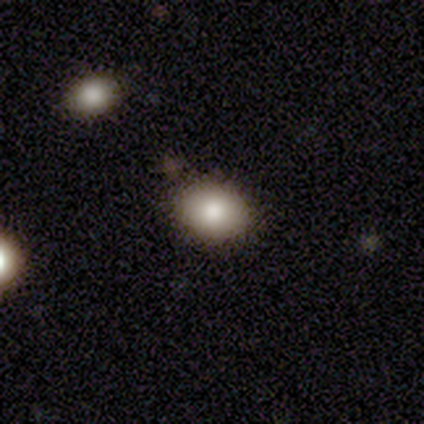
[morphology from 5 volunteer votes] Smooth or featured? 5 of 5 (100%) said smooth. How rounded? 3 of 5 (60%) said round. Merging? 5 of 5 (100%) said none.